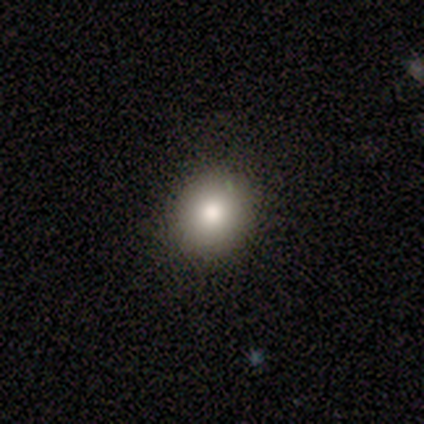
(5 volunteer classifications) This is clearly a smooth galaxy (80%). How rounded: clearly round (100%). Merging: clearly none (100%).